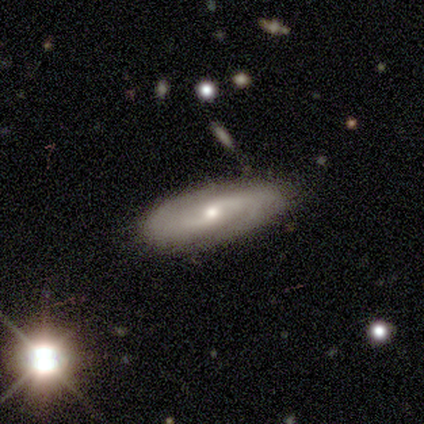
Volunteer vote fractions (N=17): Q: Smooth or featured?
A: featured or disk (100%)
Q: Edge-on disk?
A: no (76%); runner-up: yes (24%)
Q: Bar?
A: no (62%); runner-up: weak (38%)
Q: Spiral arms?
A: yes (92%); runner-up: no (8%)
Q: Spiral winding?
A: medium (42%); runner-up: loose (33%)
Q: Spiral arm count?
A: 2 (83%); runner-up: can't tell (17%)
Q: Bulge size?
A: moderate (77%); runner-up: small (23%)
Q: Merging?
A: none (88%); runner-up: minor disturbance (12%)